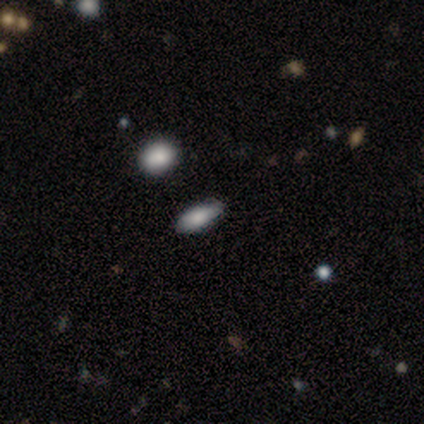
A smooth galaxy with no disk features (80%) that is in between round and cigar-shaped (100%).

Vote fractions:
- Smooth or featured? smooth: 80% / featured or disk: 20% / star or artifact: 0%
- How rounded? in between: 100% / round: 0% / cigar-shaped: 0%
- Merging? none: 100% / minor disturbance: 0% / major disturbance: 0% / merger: 0%